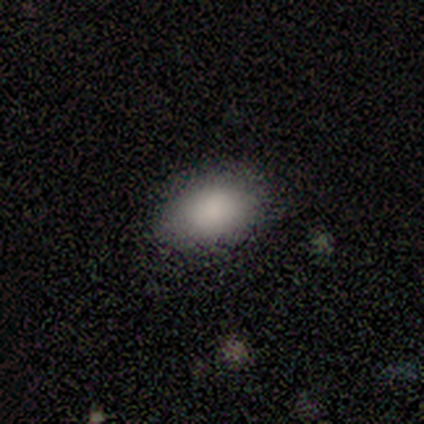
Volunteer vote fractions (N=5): Morphology: type=smooth (100%); roundness=in between (100%); merging=none (100%).